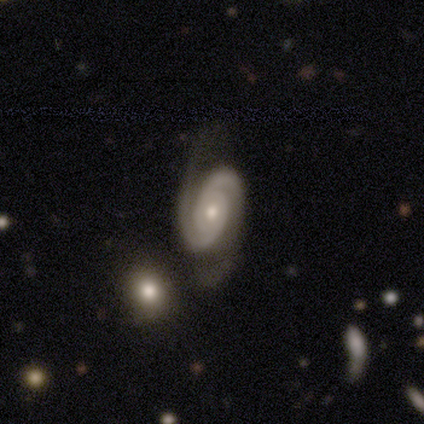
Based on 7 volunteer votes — Overall: featured or disk (100%). Edge-on disk: no (100%). Bar: no (57%; weak 43%). Spiral arms: yes (100%). Spiral arm count: 2 (71%). Spiral winding: tight (100%). Bulge size: small (57%; moderate 43%). Merging: none (71%).